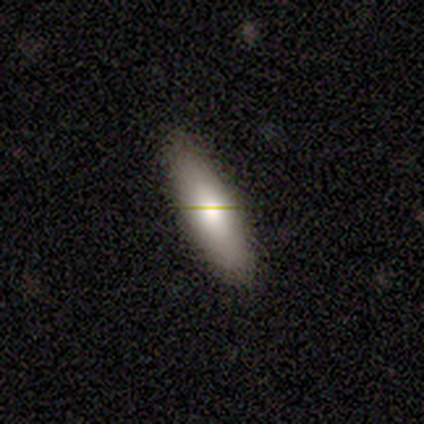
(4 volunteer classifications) Q: Smooth or featured?
A: featured or disk (75%); runner-up: smooth (25%)
Q: Edge-on disk?
A: no (100%)
Q: Bar?
A: no (100%)
Q: Spiral arms?
A: no (100%)
Q: Bulge size?
A: moderate (100%)
Q: Merging?
A: none (100%)